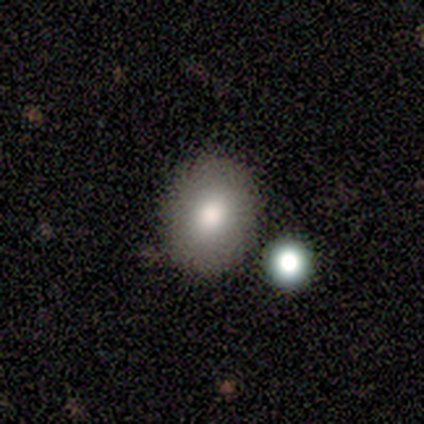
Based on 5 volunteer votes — Morphology: type=smooth (80%); roundness=round (75%); merging=none (60%).